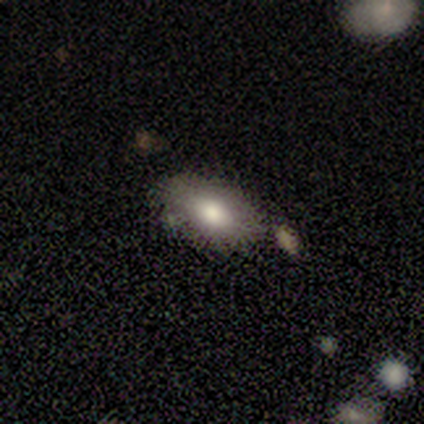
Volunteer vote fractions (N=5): This is marginally a smooth galaxy (40%, tied with featured or disk). How rounded: clearly in between (100%). Merging: clearly none (100%).